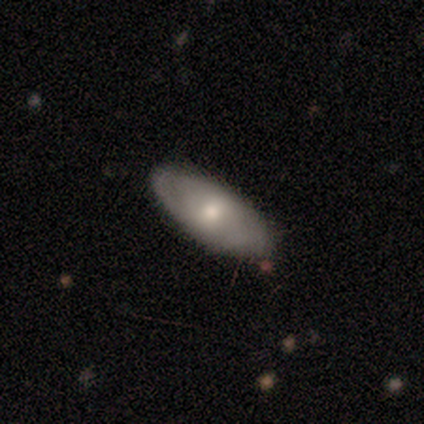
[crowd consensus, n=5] smooth 80%, featured or disk 20%, star or artifact 0%. Down the decision tree: how rounded — in between (100%); merging — none (80%).